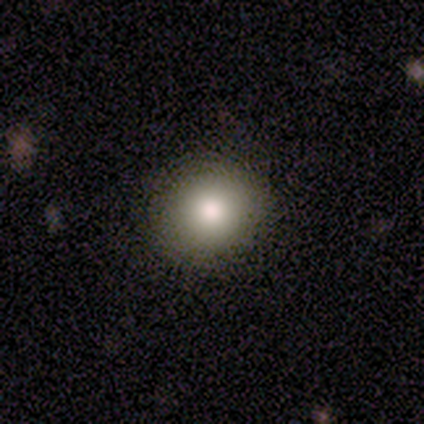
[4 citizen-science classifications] Overall: smooth (75%). How rounded: in between (67%; round 33%). Merging: none (75%).